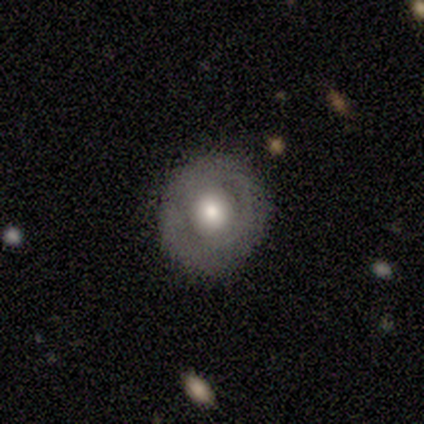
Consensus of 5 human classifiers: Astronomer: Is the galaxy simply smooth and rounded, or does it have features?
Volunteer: featured or disk — 80%.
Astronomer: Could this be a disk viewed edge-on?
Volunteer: no — 100%.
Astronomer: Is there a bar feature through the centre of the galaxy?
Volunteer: weak — 50%, tied with no at 50%.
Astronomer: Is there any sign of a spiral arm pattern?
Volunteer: no — 75%.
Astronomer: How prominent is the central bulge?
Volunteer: moderate — 100%.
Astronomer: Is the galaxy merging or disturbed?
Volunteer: none — 80%.